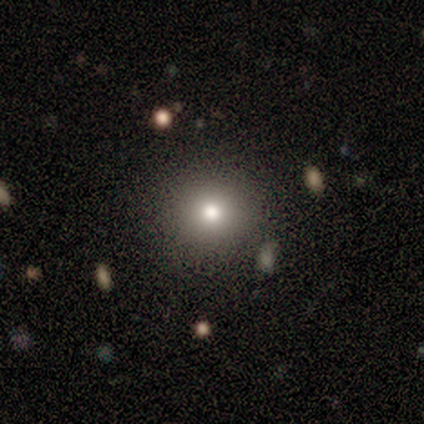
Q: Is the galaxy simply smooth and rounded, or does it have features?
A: smooth — 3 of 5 (60%).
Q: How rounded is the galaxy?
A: round — 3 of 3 (100%).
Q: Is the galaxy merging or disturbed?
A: none — 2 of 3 (67%).